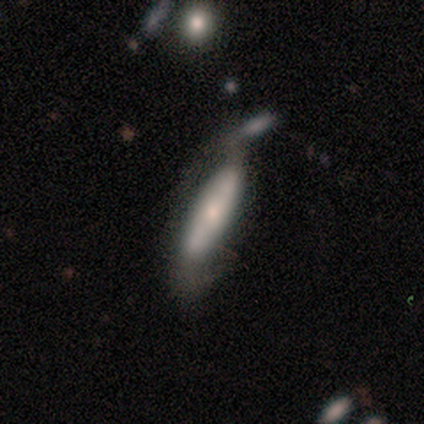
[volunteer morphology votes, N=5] Volunteers were most divided on "smooth or featured": smooth: 60%, featured or disk: 40%, star or artifact: 0%. More confident: how rounded — cigar-shaped (67%); merging — minor disturbance (60%).